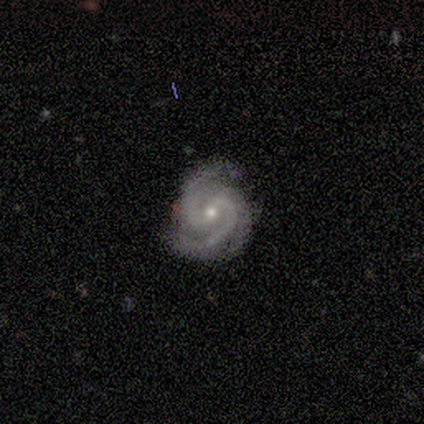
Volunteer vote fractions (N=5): Smooth or featured?
  - featured or disk: 100% *
  - smooth: 0%
  - star or artifact: 0%
Edge-on disk?
  - no: 100% *
  - yes: 0%
Bar?
  - weak: 60% *
  - strong: 20%
  - no: 20%
Spiral arms?
  - yes: 100% *
  - no: 0%
Spiral winding?
  - medium: 60% *
  - tight: 20%
  - loose: 20%
Spiral arm count?
  - 2: 60% *
  - 3: 40%
  - 1: 0%
  - 4: 0%
  - more than 4: 0%
  - can't tell: 0%
Bulge size?
  - small: 60% *
  - moderate: 40%
  - dominant: 0%
  - large: 0%
  - none: 0%
Merging?
  - none: 60% *
  - minor disturbance: 40%
  - major disturbance: 0%
  - merger: 0%